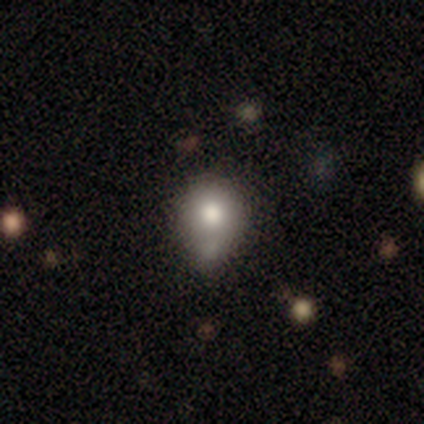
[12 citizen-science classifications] smooth_or_featured: smooth (p=0.67) [alt: featured or disk p=0.17]
how_rounded: round (p=0.75) [alt: in between p=0.12]
merging: major disturbance (p=0.30) [tied with: merger p=0.30]